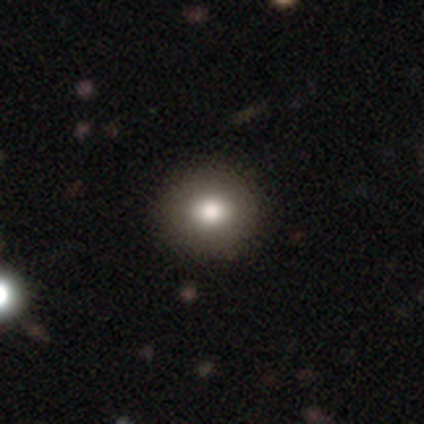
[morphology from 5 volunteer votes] featured or disk 60%, smooth 40%, star or artifact 0%. Down the decision tree: edge-on disk — no (100%); bar — no (100%); spiral arms — no (100%); bulge size — large (67%); merging — none (60%).